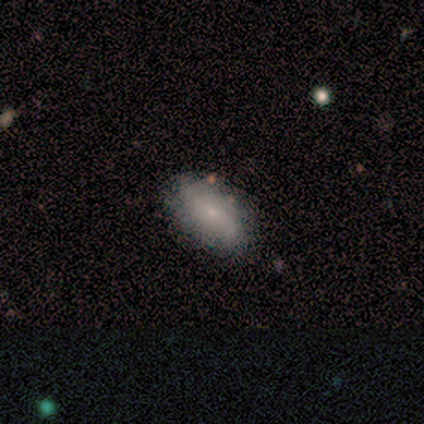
Smooth or featured?
  - smooth: 100% *
  - featured or disk: 0%
  - star or artifact: 0%
How rounded?
  - in between: 100% *
  - round: 0%
  - cigar-shaped: 0%
Merging?
  - none: 80% *
  - minor disturbance: 20%
  - major disturbance: 0%
  - merger: 0%